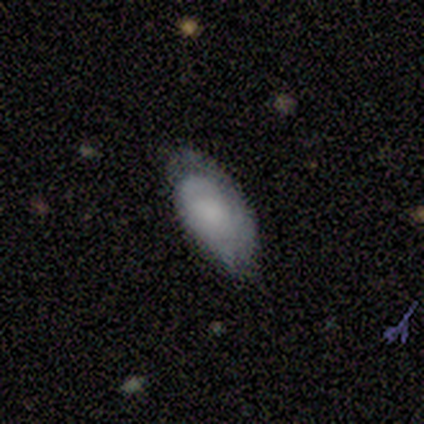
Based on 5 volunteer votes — smooth_or_featured: smooth (p=0.60) [alt: featured or disk p=0.40]
how_rounded: in between (p=1.00)
merging: none (p=0.80) [alt: minor disturbance p=0.20]